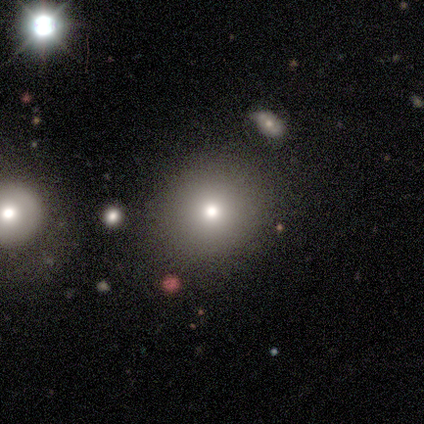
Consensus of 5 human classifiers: A smooth galaxy with no disk features (60%) that is round (67%). Merging: none (75%).